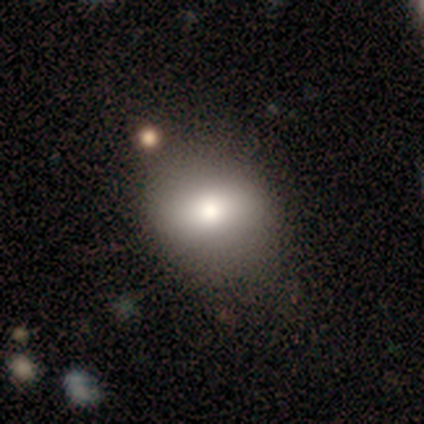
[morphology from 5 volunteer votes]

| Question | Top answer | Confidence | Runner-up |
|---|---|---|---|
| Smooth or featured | smooth | 60% | featured or disk (40%) |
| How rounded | in between | 67% | round (33%) |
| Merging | none | 80% | merger (20%) |